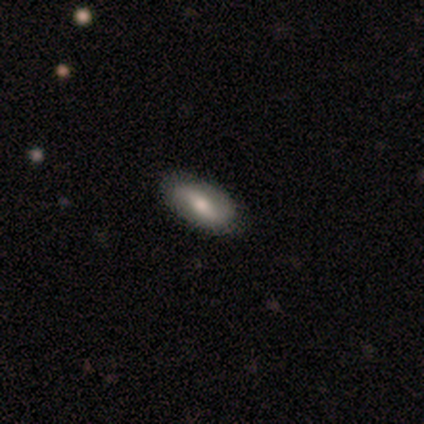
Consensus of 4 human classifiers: smooth-or-featured: featured or disk: 75% | star or artifact: 25% | smooth: 0%
  disk-edge-on: no: 100% | yes: 0%
    bar: weak: 67% | strong: 33% | no: 0%
    has-spiral-arms: yes: 67% | no: 33%
      spiral-winding: tight: 50% (tied) | loose: 50% (tied) | medium: 0%
      spiral-arm-count: 2: 100% | 1: 0% | 3: 0% | 4: 0% | more than 4: 0% | can't tell: 0%
    bulge-size: moderate: 67% | large: 33% | dominant: 0% | small: 0% | none: 0%
  merging: none: 100% | minor disturbance: 0% | major disturbance: 0% | merger: 0%